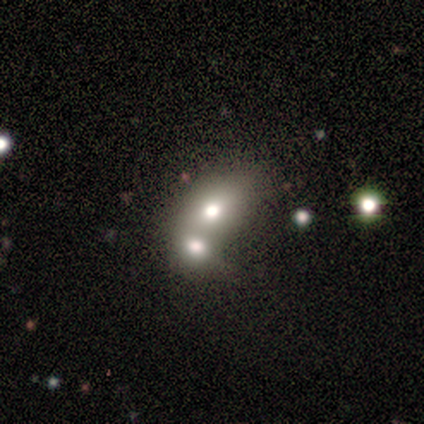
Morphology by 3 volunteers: A smooth galaxy with no disk features (100%) that is in between round and cigar-shaped (67%).

Vote fractions:
- Smooth or featured? smooth: 100% / featured or disk: 0% / star or artifact: 0%
- How rounded? in between: 67% / round: 33% / cigar-shaped: 0%
- Merging? none: 33% (tied) / minor disturbance: 33% (tied) / merger: 33% (tied) / major disturbance: 0%